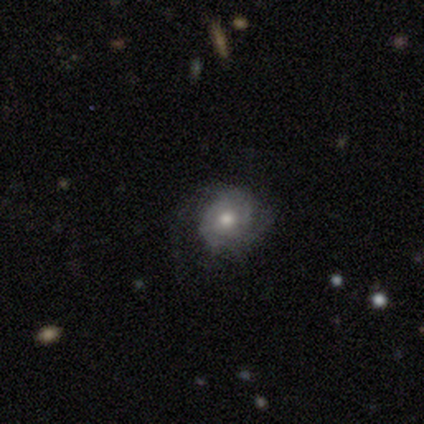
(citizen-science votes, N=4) This is likely a featured or disk galaxy (75%). It is clearly not viewed edge-on (100%). Bar: clearly no (100%). Spiral arm pattern: clearly yes (100%). Spiral arm count: likely 2 (67%). Spiral winding: marginally tight (33%, tied with medium and loose). Central bulge: likely small (67%). Merging: likely none (75%).